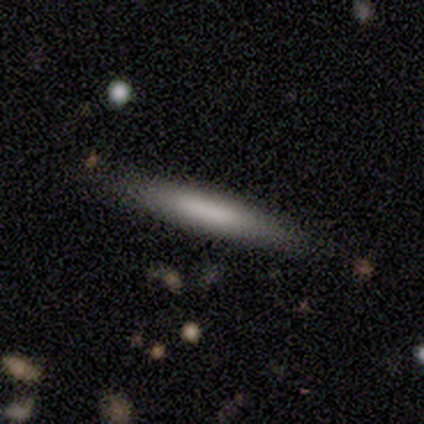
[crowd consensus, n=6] This is likely a smooth galaxy (67%). How rounded: clearly cigar-shaped (100%). Merging: clearly none (83%).